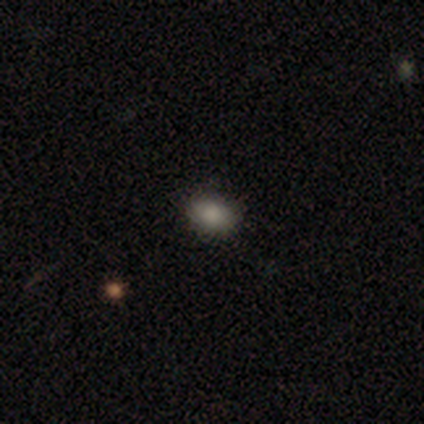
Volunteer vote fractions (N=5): smooth-or-featured: smooth: 80% | star or artifact: 20% | featured or disk: 0%
  how-rounded: in between: 75% | round: 25% | cigar-shaped: 0%
  merging: none: 75% | minor disturbance: 25% | major disturbance: 0% | merger: 0%